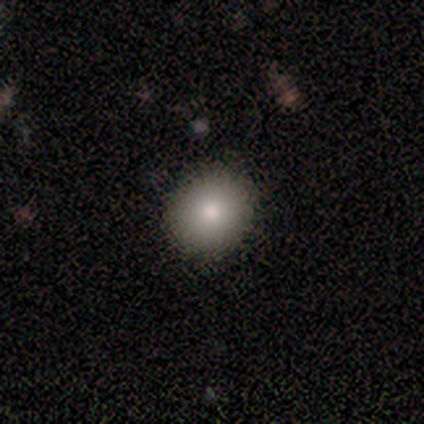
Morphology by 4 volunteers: Smooth or featured: smooth — 50% (featured or disk — 25%)
How rounded: round — 100%
Merging: none — 67% (minor disturbance — 33%)